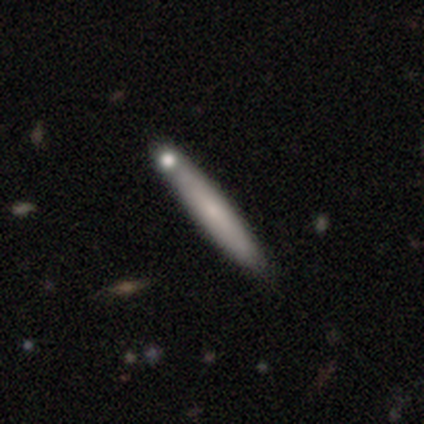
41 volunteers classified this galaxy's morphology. Smooth or featured?
  - smooth: 51% *
  - featured or disk: 46%
  - star or artifact: 2%
How rounded?
  - cigar-shaped: 95% *
  - in between: 5%
  - round: 0%
Merging?
  - none: 55% *
  - merger: 22%
  - major disturbance: 12%
  - minor disturbance: 10%